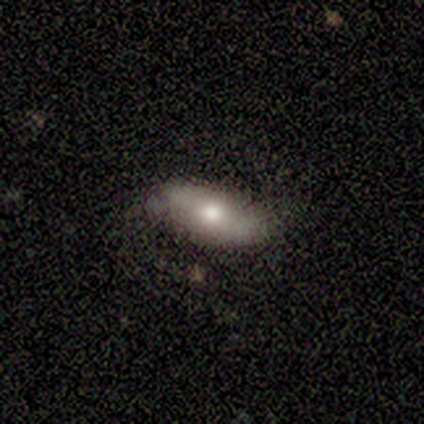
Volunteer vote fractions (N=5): Smooth or featured? 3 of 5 (60%) said featured or disk. Edge-on disk? 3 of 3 (100%) said no. Bar? 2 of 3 (67%) said no. Spiral arms? 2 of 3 (67%) said no. Bulge size? 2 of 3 (67%) said moderate. Merging? 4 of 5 (80%) said none.